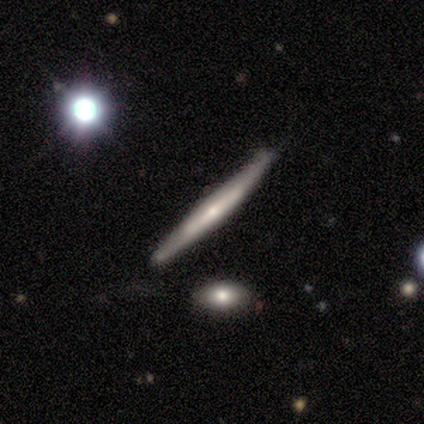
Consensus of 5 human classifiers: Overall: featured or disk (80%). Edge-on disk: yes (100%). Edge-on bulge: rounded (50%; boxy 25%). Merging: none (80%).